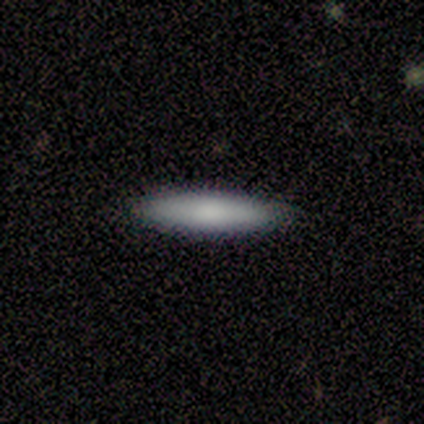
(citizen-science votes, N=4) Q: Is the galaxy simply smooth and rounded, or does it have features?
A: smooth — 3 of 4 (75%).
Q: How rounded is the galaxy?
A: cigar-shaped — 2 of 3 (67%).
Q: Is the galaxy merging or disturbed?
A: none — 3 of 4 (75%).